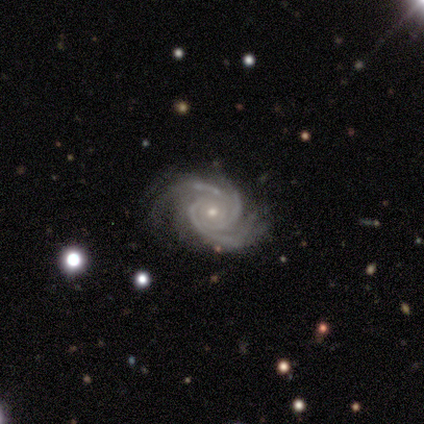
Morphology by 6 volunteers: Volunteers were most divided on "bulge size" (2-way tie): moderate: 50%, small: 50%, dominant: 0%, large: 0%, none: 0%. More confident: smooth or featured — featured or disk (100%); edge-on disk — no (100%); spiral arms — yes (100%); bar — no (83%); spiral arm count — 3 (83%); spiral winding — tight (67%); merging — none (67%).